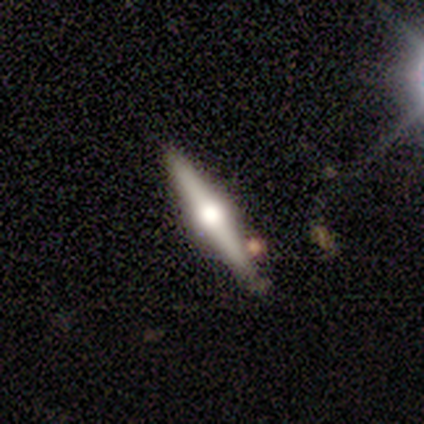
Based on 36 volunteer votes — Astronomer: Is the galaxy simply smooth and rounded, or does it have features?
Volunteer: featured or disk — 78%.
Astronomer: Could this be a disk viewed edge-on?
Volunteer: yes — 100%.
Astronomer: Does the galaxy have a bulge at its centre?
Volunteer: rounded — 82%.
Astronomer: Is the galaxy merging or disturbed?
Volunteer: none — 74%.